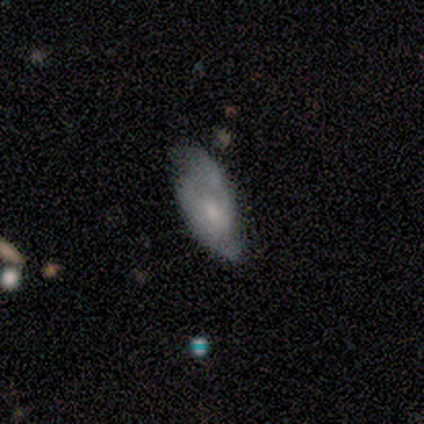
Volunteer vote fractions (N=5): featured or disk 60%, smooth 40%, star or artifact 0%. Down the decision tree: edge-on disk — no (100%); bar — no (67%); spiral arms — yes (100%); spiral arm count — 2 (100%); spiral winding — tight (67%); bulge size — moderate (100%); merging — minor disturbance (80%).